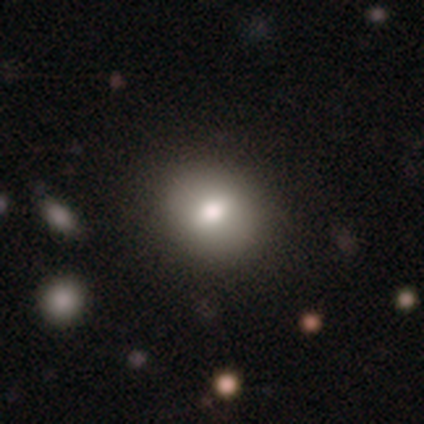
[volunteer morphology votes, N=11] type=smooth (73%); roundness=round (62%); merging=none (89%).